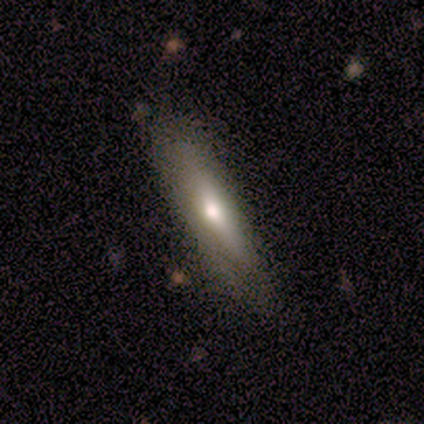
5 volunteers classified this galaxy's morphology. type=smooth (40%, tied with featured or disk); roundness=in between (50%, tied with cigar-shaped); merging=none (50%, tied with minor disturbance).